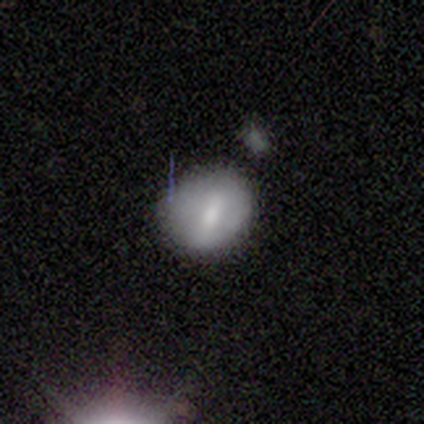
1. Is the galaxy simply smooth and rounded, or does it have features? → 74% smooth, 23% featured or disk, 3% star or artifact.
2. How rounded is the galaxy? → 55% round, 45% in between, 0% cigar-shaped.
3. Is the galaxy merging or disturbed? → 58% none, 32% minor disturbance, 8% major disturbance, 3% merger.